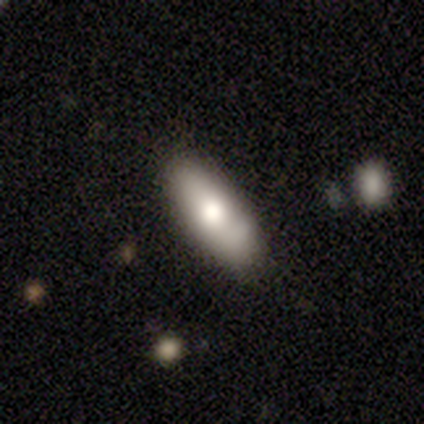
Q: Smooth or featured?
A: smooth (80%); runner-up: featured or disk (20%)
Q: How rounded?
A: in between (100%)
Q: Merging?
A: none (80%); runner-up: minor disturbance (20%)